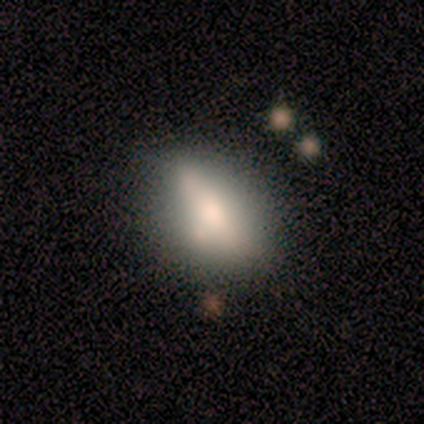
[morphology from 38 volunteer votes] Smooth or featured: smooth — 61% (featured or disk — 34%)
How rounded: in between — 78% (cigar-shaped — 13%)
Merging: none — 56% (minor disturbance — 31%)